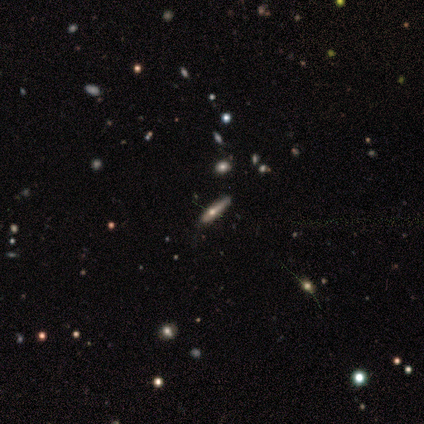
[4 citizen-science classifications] Overall: smooth (50%; featured or disk 25%). How rounded: cigar-shaped (100%). Merging: minor disturbance (67%; none 33%).